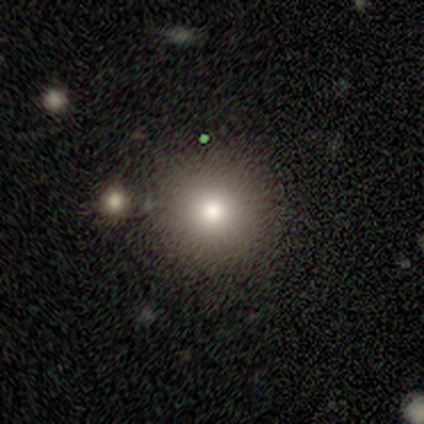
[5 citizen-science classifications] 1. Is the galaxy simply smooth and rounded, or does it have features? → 60% smooth, 40% featured or disk, 0% star or artifact.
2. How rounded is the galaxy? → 100% round, 0% in between, 0% cigar-shaped.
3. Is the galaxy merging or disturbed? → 60% none, 20% minor disturbance, 20% merger, 0% major disturbance.